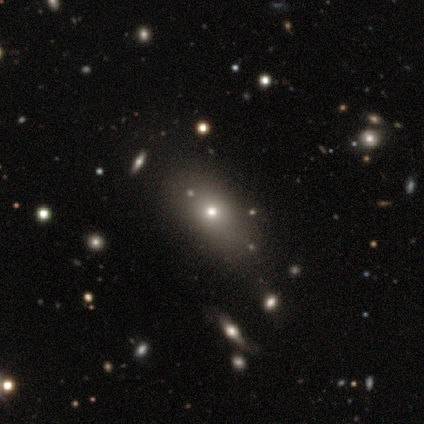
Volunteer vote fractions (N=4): A smooth galaxy with no disk features (50%, tied with featured or disk) that is in between round and cigar-shaped (100%). Merging: none (75%).